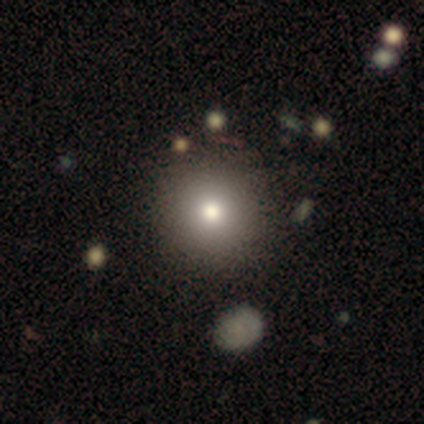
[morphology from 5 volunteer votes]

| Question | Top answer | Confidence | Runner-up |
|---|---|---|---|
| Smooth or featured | smooth | 80% | star or artifact (20%) |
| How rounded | round | 75% | in between (25%) |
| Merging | none | 75% | minor disturbance (25%) |